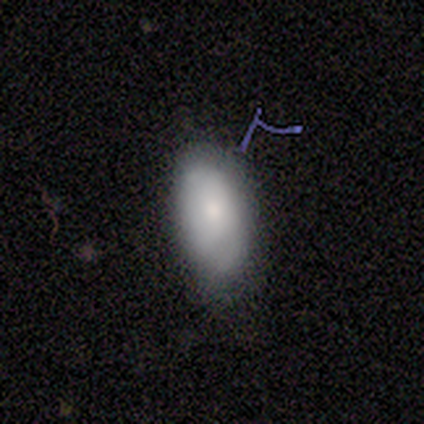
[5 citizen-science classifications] This appears to be a smooth galaxy with no disk features (80%) that is in between round and cigar-shaped (100%). Merging: none (60%).